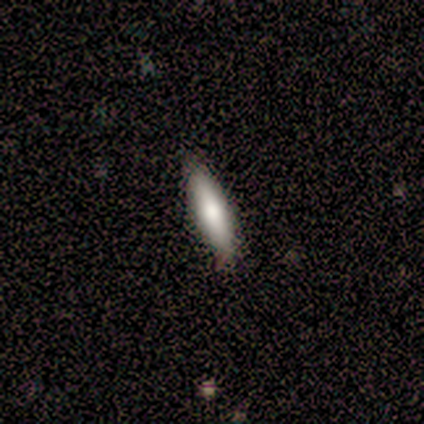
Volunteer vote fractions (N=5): A smooth galaxy with no disk features (100%) that is cigar-shaped (80%). Merging: none (60%).